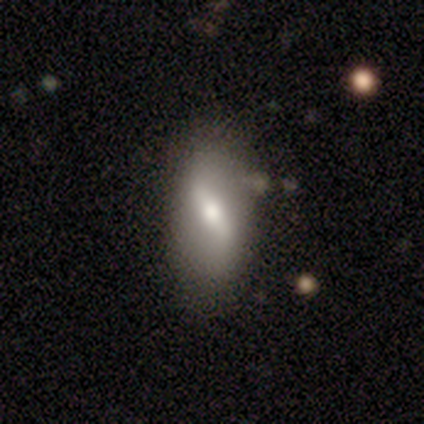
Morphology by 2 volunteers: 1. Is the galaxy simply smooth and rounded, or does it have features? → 100% featured or disk, 0% smooth, 0% star or artifact.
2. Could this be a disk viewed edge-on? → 100% no, 0% yes.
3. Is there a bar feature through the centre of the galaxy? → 50% weak (tied), 50% no (tied), 0% strong.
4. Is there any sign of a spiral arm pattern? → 50% yes (tied), 50% no (tied).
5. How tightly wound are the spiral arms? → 100% loose, 0% tight, 0% medium.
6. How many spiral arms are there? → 100% 2, 0% 1, 0% 3, 0% 4, 0% more than 4, 0% can't tell.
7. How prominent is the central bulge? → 50% moderate (tied), 50% small (tied), 0% dominant, 0% large, 0% none.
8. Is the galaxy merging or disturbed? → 100% none, 0% minor disturbance, 0% major disturbance, 0% merger.